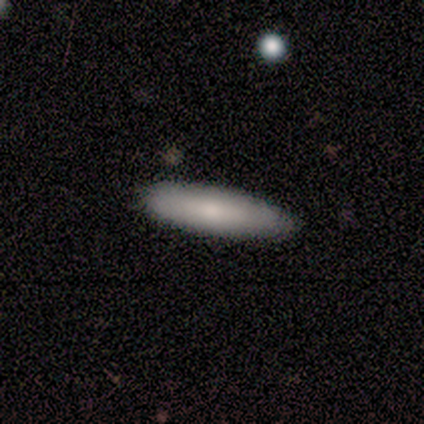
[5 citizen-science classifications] A smooth galaxy with no disk features (80%) that is cigar-shaped (75%). Merging: none (80%).